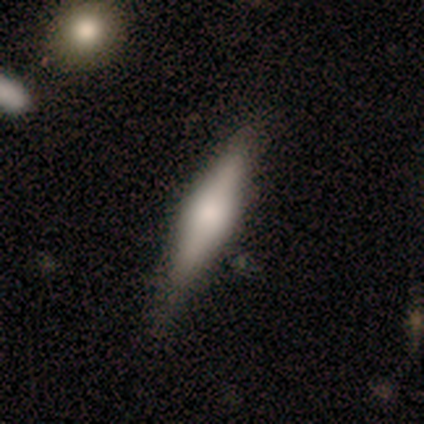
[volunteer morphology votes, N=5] smooth-or-featured: smooth: 80% | featured or disk: 20% | star or artifact: 0%
  how-rounded: in between: 50% (tied) | cigar-shaped: 50% (tied) | round: 0%
  merging: none: 80% | minor disturbance: 20% | major disturbance: 0% | merger: 0%